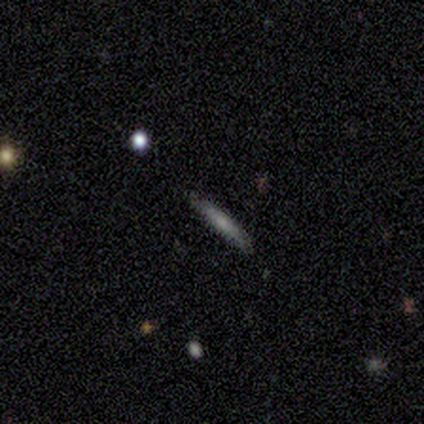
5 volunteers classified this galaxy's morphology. type=smooth (80%); roundness=cigar-shaped (100%); merging=none (80%).